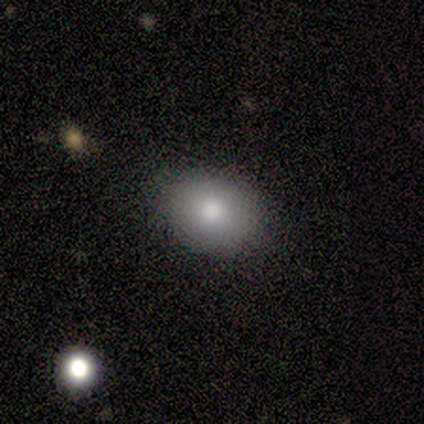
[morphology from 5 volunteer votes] Smooth or featured? 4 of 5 (80%) said smooth. How rounded? 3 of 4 (75%) said in between. Merging? 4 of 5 (80%) said none.